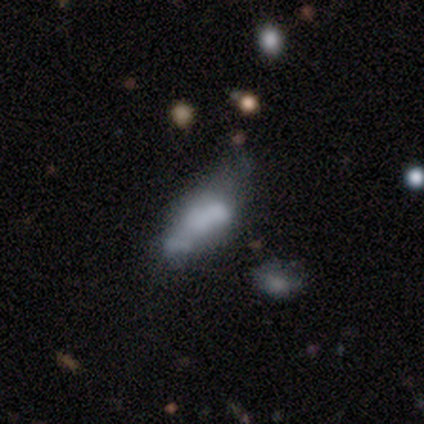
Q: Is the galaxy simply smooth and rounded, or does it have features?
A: featured or disk — 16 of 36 (44%).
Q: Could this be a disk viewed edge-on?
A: no — 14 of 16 (88%).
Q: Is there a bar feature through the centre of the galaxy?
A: no — 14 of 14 (100%).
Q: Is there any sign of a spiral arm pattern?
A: no — 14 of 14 (100%).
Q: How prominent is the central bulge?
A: none — 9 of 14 (64%).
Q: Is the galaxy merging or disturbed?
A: major disturbance — 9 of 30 (30%).